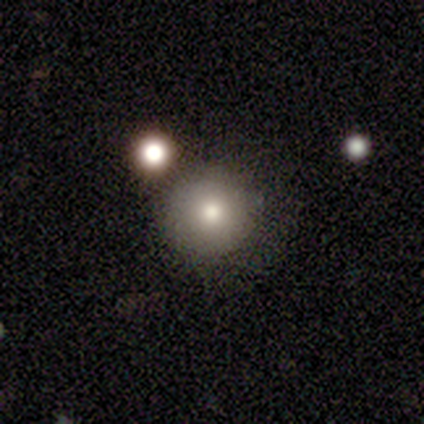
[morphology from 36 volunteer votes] Smooth or featured? 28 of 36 (78%) said smooth. How rounded? 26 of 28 (93%) said round. Merging? 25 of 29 (86%) said none.